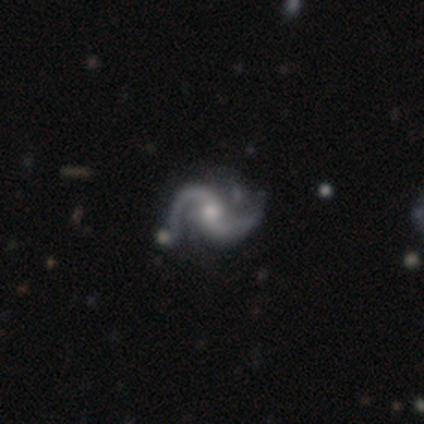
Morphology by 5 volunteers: smooth-or-featured: featured or disk: 100% | smooth: 0% | star or artifact: 0%
  disk-edge-on: no: 100% | yes: 0%
    bar: no: 60% | strong: 20% | weak: 20%
    has-spiral-arms: yes: 100% | no: 0%
      spiral-winding: loose: 60% | tight: 20% | medium: 20%
      spiral-arm-count: 2: 100% | 1: 0% | 3: 0% | 4: 0% | more than 4: 0% | can't tell: 0%
    bulge-size: moderate: 40% (tied) | small: 40% (tied) | none: 20% | dominant: 0% | large: 0%
  merging: none: 100% | minor disturbance: 0% | major disturbance: 0% | merger: 0%